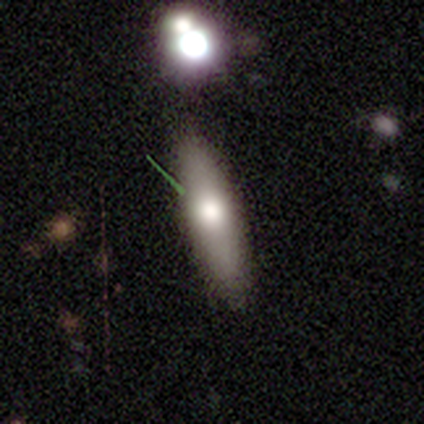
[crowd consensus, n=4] Smooth or featured: smooth — 100%
How rounded: in between — 75% (cigar-shaped — 25%)
Merging: none — 100%